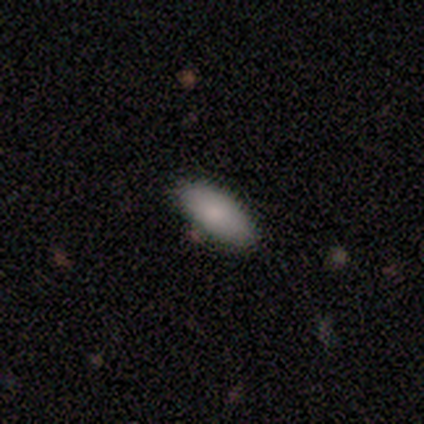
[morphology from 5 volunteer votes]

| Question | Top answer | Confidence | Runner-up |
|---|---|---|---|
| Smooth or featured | smooth | 100% | — |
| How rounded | in between | 100% | — |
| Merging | none | 60% | minor disturbance (40%) |